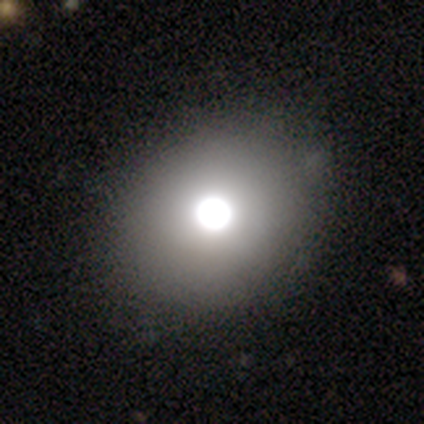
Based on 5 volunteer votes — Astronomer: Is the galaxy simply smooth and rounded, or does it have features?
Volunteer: smooth — 40%, tied with featured or disk at 40%.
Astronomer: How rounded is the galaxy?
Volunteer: round — 100%.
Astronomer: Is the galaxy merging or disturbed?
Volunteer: none — 100%.